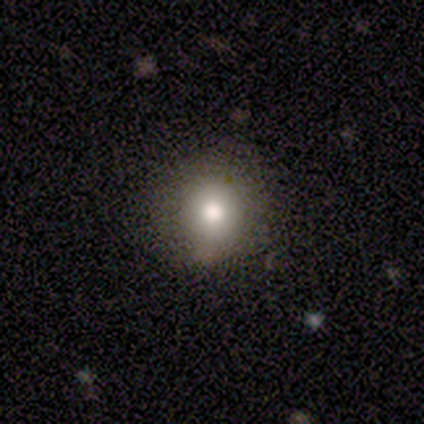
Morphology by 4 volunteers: A smooth galaxy with no disk features (75%) that is in between round and cigar-shaped (67%).

Vote fractions:
- Smooth or featured? smooth: 75% / star or artifact: 25% / featured or disk: 0%
- How rounded? in between: 67% / round: 33% / cigar-shaped: 0%
- Merging? none: 67% / minor disturbance: 33% / major disturbance: 0% / merger: 0%